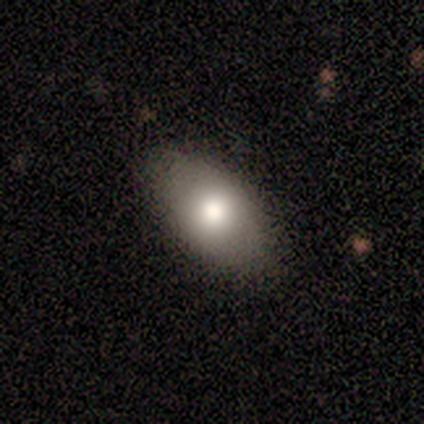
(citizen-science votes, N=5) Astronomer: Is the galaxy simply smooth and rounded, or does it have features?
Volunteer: smooth — 100%.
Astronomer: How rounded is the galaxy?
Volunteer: in between — 100%.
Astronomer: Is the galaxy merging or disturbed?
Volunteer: none — 80%.